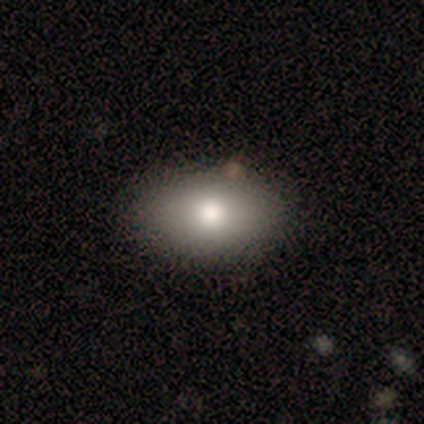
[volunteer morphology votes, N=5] smooth-or-featured: smooth: 100% | featured or disk: 0% | star or artifact: 0%
  how-rounded: in between: 100% | round: 0% | cigar-shaped: 0%
  merging: none: 80% | minor disturbance: 20% | major disturbance: 0% | merger: 0%